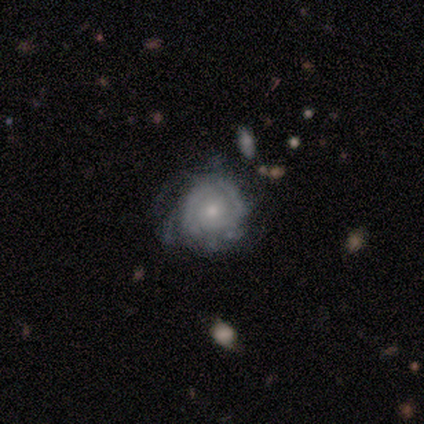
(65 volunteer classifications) This appears to be a featured or disk galaxy (78%) with no bar (88%), tight (74%) spiral arms (81%) and a moderate central bulge (48%, tied with small). Merging: none (53%).